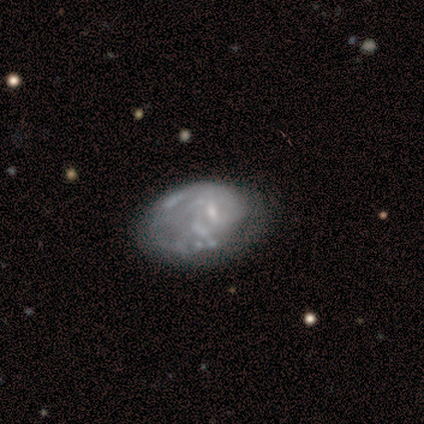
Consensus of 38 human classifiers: Volunteers were most divided on "merging" (2-way tie): none: 24%, major disturbance: 24%, minor disturbance: 16%, merger: 8%. Remaining: edge-on disk — no (100%); smooth or featured — featured or disk (82%); spiral arm count — can't tell (72%); spiral arms — yes (58%); bar — no (55%); bulge size — small (45%); spiral winding — tight (39%).